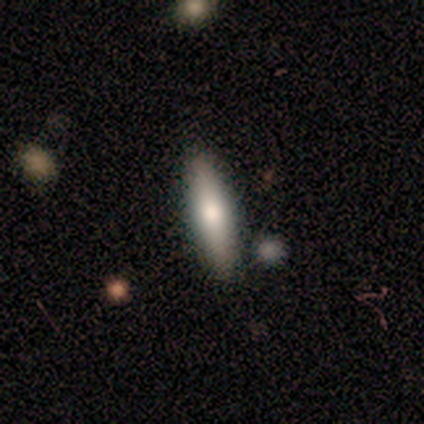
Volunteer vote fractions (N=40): Volunteers were most divided on "smooth or featured": smooth: 72%, featured or disk: 20%, star or artifact: 8%. More confident: how rounded — cigar-shaped (79%); merging — none (78%).